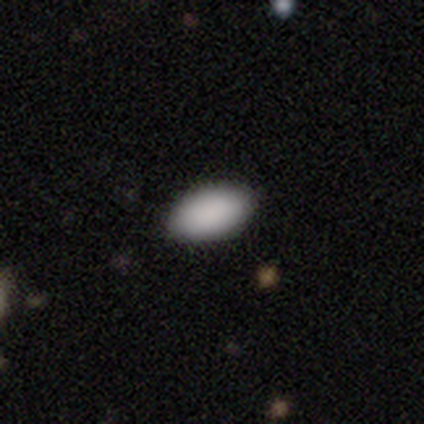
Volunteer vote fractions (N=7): Smooth or featured? smooth (100%)
How rounded? in between (100%)
Merging? none (86%)